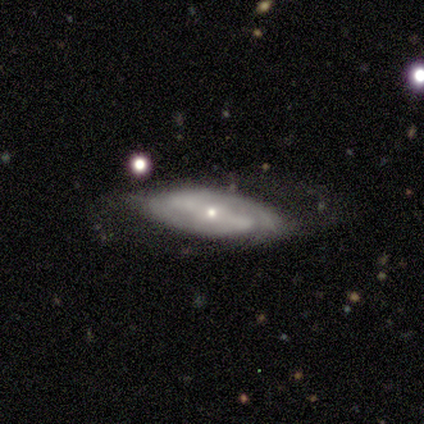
A featured or disk galaxy (80%) with a strong bar (75%), 2 (75%) medium (100%) spiral arms (100%) and a small central bulge (75%).

Vote fractions:
- Smooth or featured? featured or disk: 80% / smooth: 20% / star or artifact: 0%
- Edge-on disk? no: 100% / yes: 0%
- Bar? strong: 75% / no: 25% / weak: 0%
- Spiral arms? yes: 100% / no: 0%
- Spiral winding? medium: 100% / tight: 0% / loose: 0%
- Spiral arm count? 2: 75% / can't tell: 25% / 1: 0% / 3: 0% / 4: 0% / more than 4: 0%
- Bulge size? small: 75% / moderate: 25% / dominant: 0% / large: 0% / none: 0%
- Merging? none: 100% / minor disturbance: 0% / major disturbance: 0% / merger: 0%